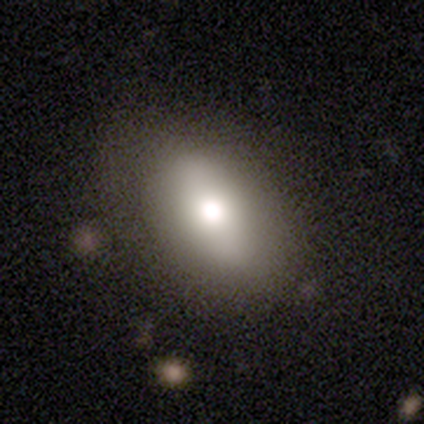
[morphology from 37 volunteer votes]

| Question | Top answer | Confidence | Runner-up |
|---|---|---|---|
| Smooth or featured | smooth | 59% | featured or disk (27%) |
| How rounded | in between | 82% | round (9%) |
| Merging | none | 75% | minor disturbance (19%) |